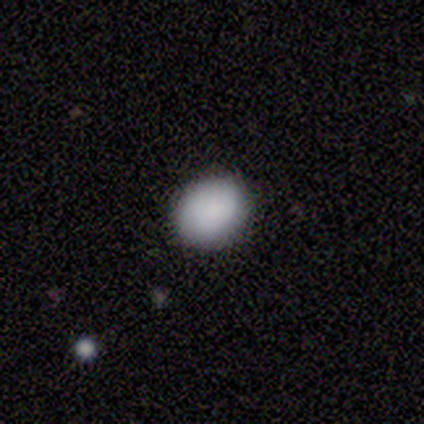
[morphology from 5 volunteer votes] Smooth or featured: smooth — 100%
How rounded: round — 60% (in between — 40%)
Merging: none — 100%